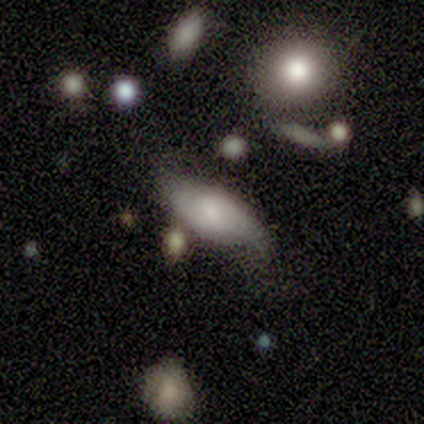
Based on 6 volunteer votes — Volunteers were most divided on "merging": minor disturbance: 50%, none: 33%, major disturbance: 17%, merger: 0%. More confident: edge-on disk — no (100%); bar — weak (100%); spiral arms — yes (100%); spiral winding — loose (75%); spiral arm count — 2 (75%); bulge size — moderate (75%); smooth or featured — featured or disk (67%).